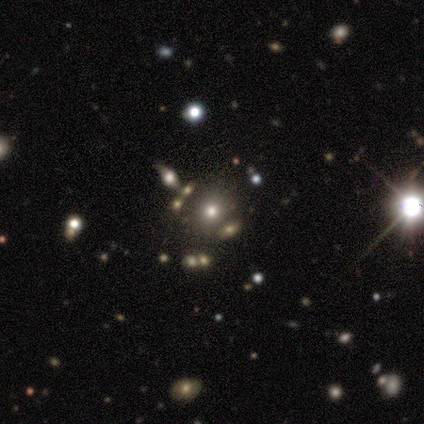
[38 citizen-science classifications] Smooth or featured: smooth — 50% (star or artifact — 42%)
How rounded: round — 89% (in between — 11%)
Merging: none — 68% (merger — 18%)